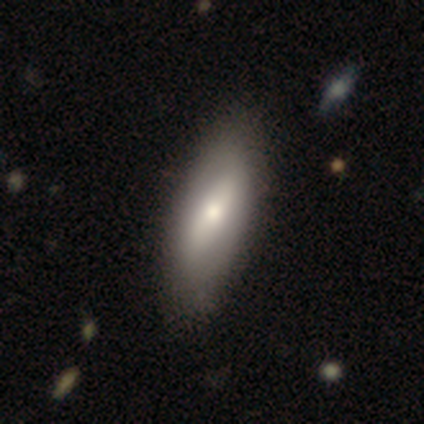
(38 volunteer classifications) smooth-or-featured: smooth: 63% | featured or disk: 34% | star or artifact: 3%
  how-rounded: in between: 75% | cigar-shaped: 25% | round: 0%
  merging: none: 68% | minor disturbance: 11% | merger: 5% | major disturbance: 3%